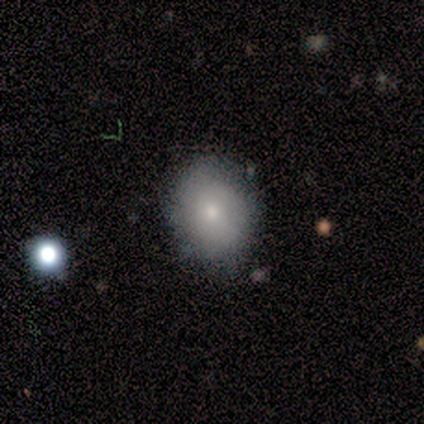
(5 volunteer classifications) Smooth or featured? 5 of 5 (100%) said smooth. How rounded? 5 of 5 (100%) said round. Merging? 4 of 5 (80%) said none.